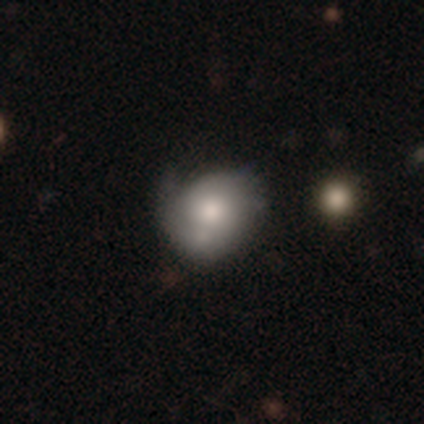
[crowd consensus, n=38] Morphology: type=smooth (61%); roundness=round (70%); merging=minor disturbance (46%).